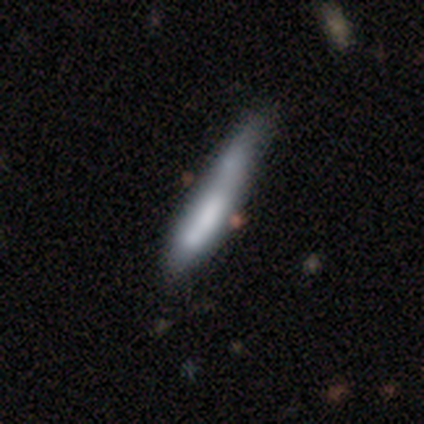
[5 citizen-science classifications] Q: Smooth or featured?
A: smooth (80%); runner-up: featured or disk (20%)
Q: How rounded?
A: cigar-shaped (100%)
Q: Merging?
A: none (40%); runner-up: minor disturbance (20%)